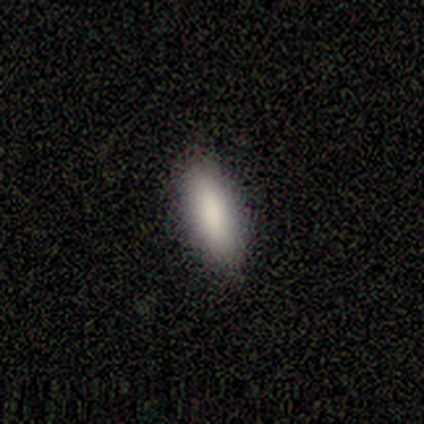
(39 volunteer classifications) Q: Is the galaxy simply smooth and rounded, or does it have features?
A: smooth — 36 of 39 (92%).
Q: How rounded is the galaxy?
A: in between — 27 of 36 (75%).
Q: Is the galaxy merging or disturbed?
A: none — 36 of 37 (97%).